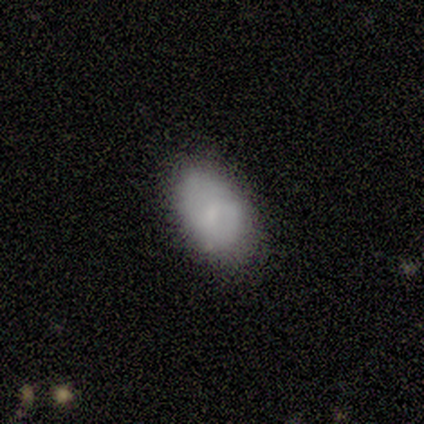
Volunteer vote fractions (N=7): Q: Smooth or featured?
A: smooth (71%); runner-up: featured or disk (14%)
Q: How rounded?
A: in between (80%); runner-up: round (20%)
Q: Merging?
A: none (83%); runner-up: minor disturbance (17%)